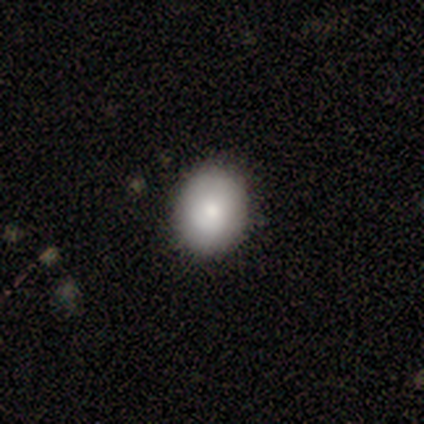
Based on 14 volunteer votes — smooth_or_featured: smooth (p=0.86) [alt: featured or disk p=0.07]
how_rounded: round (p=0.50) [tied with: in between p=0.50]
merging: none (p=0.77) [alt: minor disturbance p=0.23]